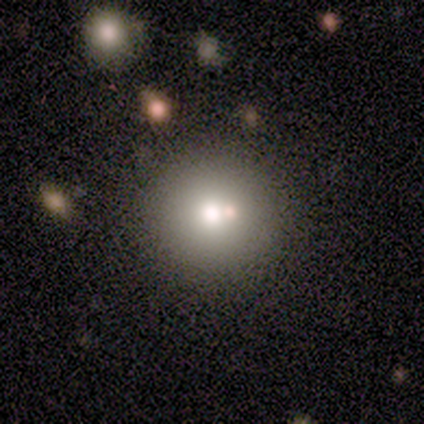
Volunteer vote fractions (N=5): A smooth galaxy with no disk features (60%) that is round (100%).

Vote fractions:
- Smooth or featured? smooth: 60% / featured or disk: 20% / star or artifact: 20%
- How rounded? round: 100% / in between: 0% / cigar-shaped: 0%
- Merging? none: 75% / minor disturbance: 25% / major disturbance: 0% / merger: 0%